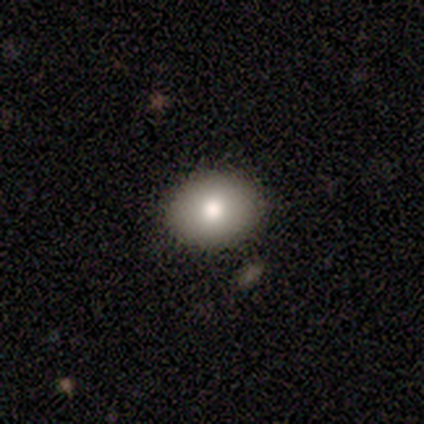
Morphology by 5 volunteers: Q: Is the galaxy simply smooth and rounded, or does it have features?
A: smooth — 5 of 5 (100%).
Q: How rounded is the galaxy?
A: in between — 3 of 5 (60%).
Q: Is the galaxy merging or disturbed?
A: none — 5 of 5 (100%).